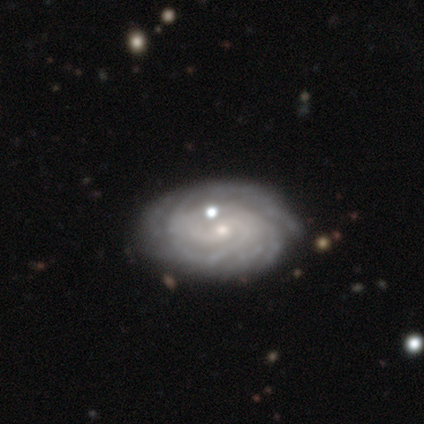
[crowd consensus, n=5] smooth_or_featured: featured or disk (p=1.00)
disk_edge_on: no (p=1.00)
bar: weak (p=0.60) [alt: no p=0.40]
has_spiral_arms: yes (p=1.00)
spiral_winding: tight (p=0.60) [alt: medium p=0.20]
spiral_arm_count: more than 4 (p=0.40) [tied with: can't tell p=0.40]
bulge_size: small (p=0.60) [alt: moderate p=0.20]
merging: none (p=0.40) [tied with: merger p=0.40]